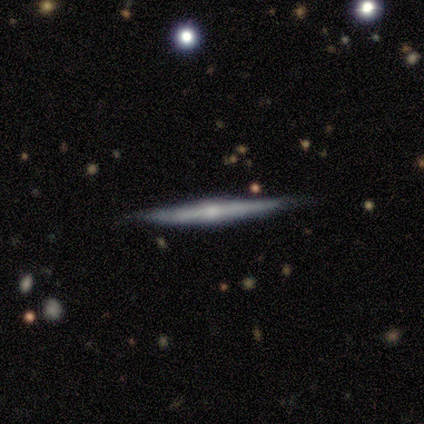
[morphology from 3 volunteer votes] Smooth or featured? 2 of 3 (67%) said featured or disk. Edge-on disk? 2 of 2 (100%) said yes. Edge-on bulge? 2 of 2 (100%) said rounded. Merging? 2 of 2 (100%) said none.